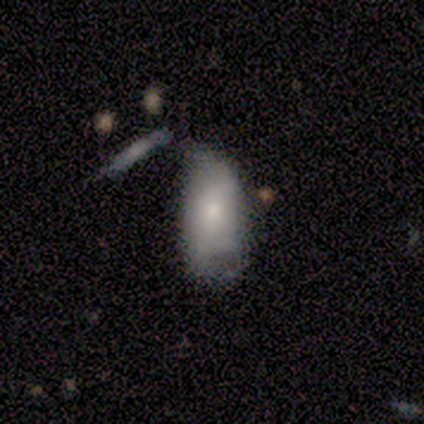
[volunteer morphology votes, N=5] A smooth galaxy with no disk features (60%) that is in between round and cigar-shaped (100%).

Vote fractions:
- Smooth or featured? smooth: 60% / featured or disk: 40% / star or artifact: 0%
- How rounded? in between: 100% / round: 0% / cigar-shaped: 0%
- Merging? merger: 60% / minor disturbance: 40% / none: 0% / major disturbance: 0%